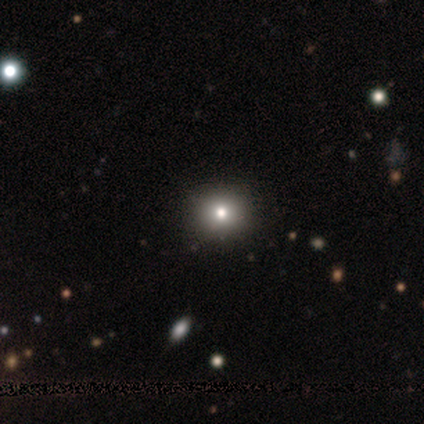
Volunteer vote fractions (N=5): Overall: smooth (60%; star or artifact 40%). How rounded: round (100%). Merging: none (100%).